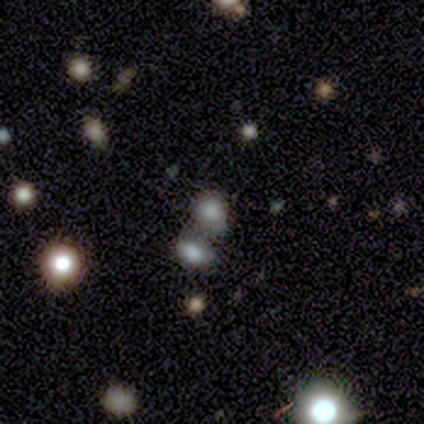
Volunteers were most divided on "how rounded": round: 52%, in between: 48%, cigar-shaped: 0%. More confident: merging — merger (70%); smooth or featured — smooth (64%).